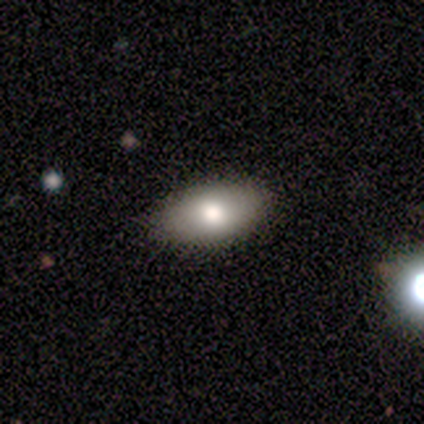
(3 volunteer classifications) smooth 100%, featured or disk 0%, star or artifact 0%. Down the decision tree: how rounded — in between (100%); merging — none (100%).